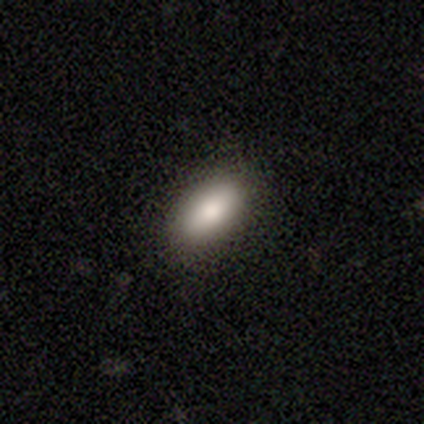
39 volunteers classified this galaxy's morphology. Smooth or featured? smooth (85%)
How rounded? in between (91%)
Merging? none (92%)